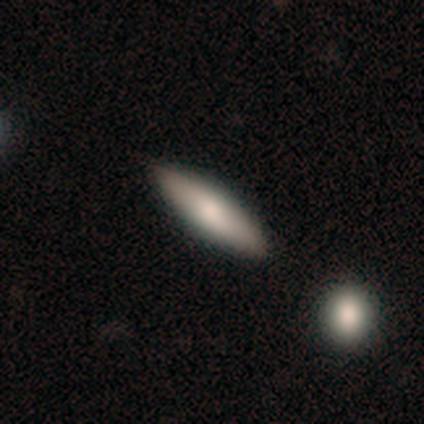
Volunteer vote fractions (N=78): Smooth or featured? smooth (64%)
How rounded? cigar-shaped (62%)
Merging? none (39%)